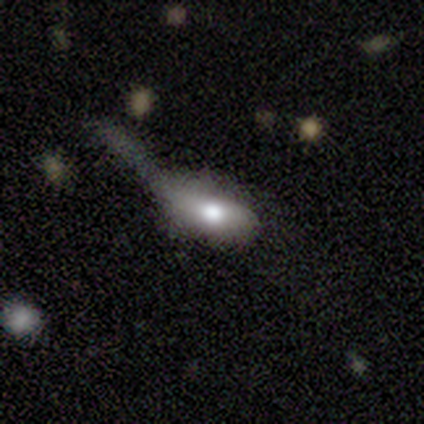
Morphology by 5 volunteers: Volunteers were most divided on "merging" (2-way tie): none: 40%, minor disturbance: 40%, major disturbance: 20%, merger: 0%. More confident: how rounded — in between (67%); smooth or featured — smooth (60%).